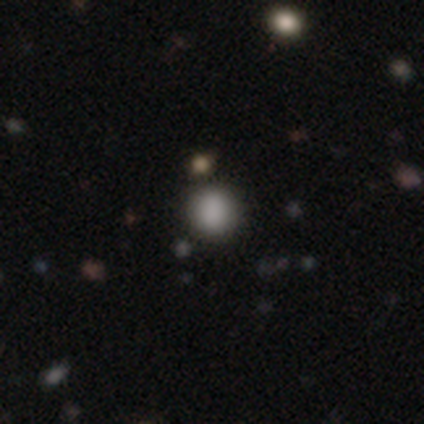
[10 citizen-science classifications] smooth 90%, star or artifact 10%, featured or disk 0%. Down the decision tree: how rounded — round (89%); merging — none (78%).